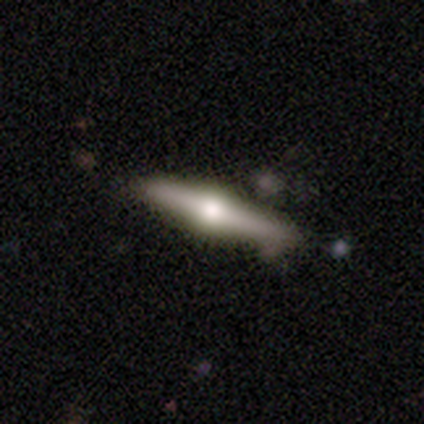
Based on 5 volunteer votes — Q: Smooth or featured?
A: featured or disk (80%); runner-up: smooth (20%)
Q: Edge-on disk?
A: yes (100%)
Q: Edge-on bulge?
A: rounded (100%)
Q: Merging?
A: none (100%)